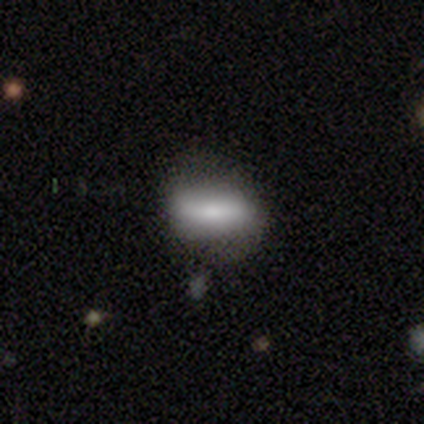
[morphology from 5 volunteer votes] smooth-or-featured: smooth: 80% | featured or disk: 20% | star or artifact: 0%
  how-rounded: in between: 75% | cigar-shaped: 25% | round: 0%
  merging: none: 80% | minor disturbance: 20% | major disturbance: 0% | merger: 0%